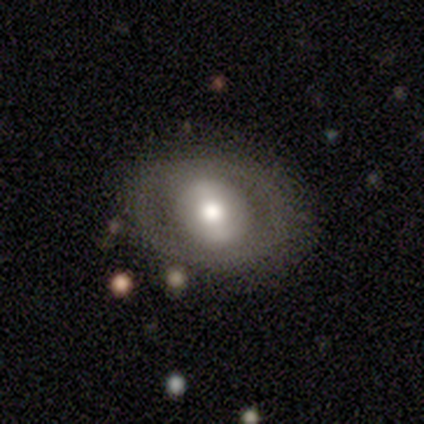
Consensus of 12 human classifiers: Smooth or featured? featured or disk (50%)
Edge-on disk? no (100%)
Bar? weak (50%)
Spiral arms? no (83%)
Bulge size? moderate (50%)
Merging? none (82%)